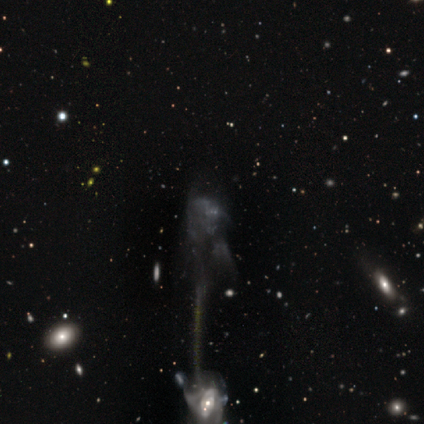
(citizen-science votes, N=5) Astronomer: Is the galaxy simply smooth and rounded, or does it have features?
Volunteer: featured or disk — 60%.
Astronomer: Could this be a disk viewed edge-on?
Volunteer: no — 100%.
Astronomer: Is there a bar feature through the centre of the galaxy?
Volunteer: no — 100%.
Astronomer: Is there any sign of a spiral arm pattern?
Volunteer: no — 100%.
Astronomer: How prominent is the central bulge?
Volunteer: none — 100%.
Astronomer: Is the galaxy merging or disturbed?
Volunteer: major disturbance — 50%, tied with merger at 50%.